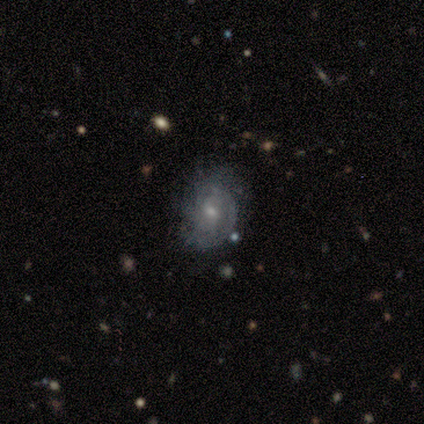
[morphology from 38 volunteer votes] Q: Smooth or featured?
A: featured or disk (61%); runner-up: smooth (29%)
Q: Edge-on disk?
A: no (96%); runner-up: yes (4%)
Q: Bar?
A: no (64%); runner-up: weak (36%)
Q: Spiral arms?
A: yes (86%); runner-up: no (14%)
Q: Spiral winding?
A: tight (53%); runner-up: medium (32%)
Q: Spiral arm count?
A: can't tell (58%); runner-up: 2 (21%)
Q: Bulge size?
A: small (59%); runner-up: moderate (36%)
Q: Merging?
A: none (59%); runner-up: minor disturbance (29%)